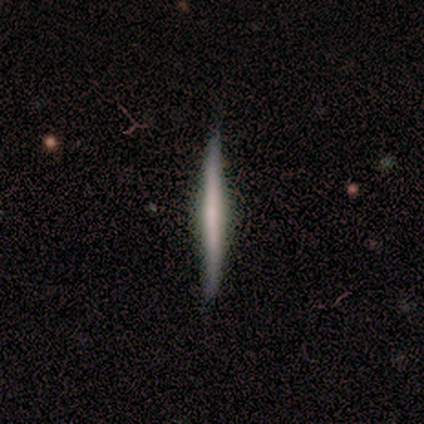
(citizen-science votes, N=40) Morphology: type=featured or disk (68%); edge-on=yes (93%); edge-on bulge=none (60%); merging=none (90%).